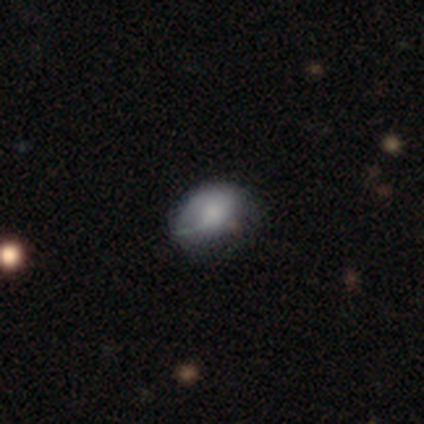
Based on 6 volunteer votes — A smooth galaxy with no disk features (50%) that is in between round and cigar-shaped (67%). Merging: none (60%).